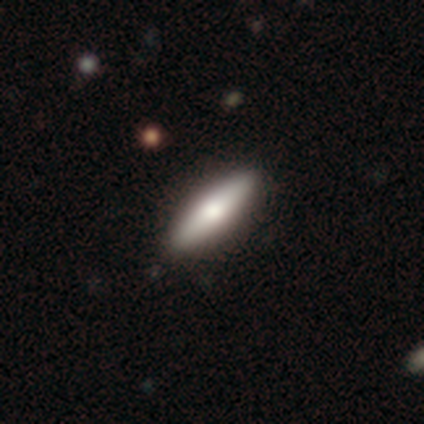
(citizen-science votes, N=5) smooth-or-featured: featured or disk: 40% (tied) | star or artifact: 40% (tied) | smooth: 20%
  disk-edge-on: yes: 100% | no: 0%
    edge-on-bulge: rounded: 100% | boxy: 0% | none: 0%
  merging: none: 100% | minor disturbance: 0% | major disturbance: 0% | merger: 0%